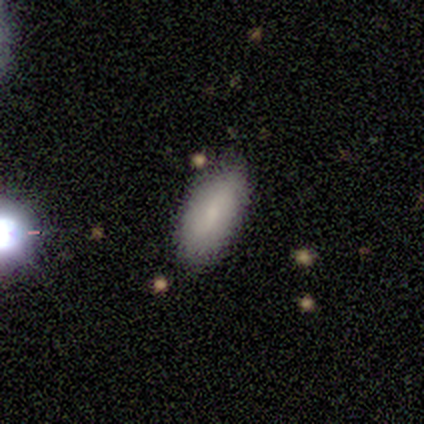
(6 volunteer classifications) Q: Smooth or featured?
A: smooth (83%); runner-up: featured or disk (17%)
Q: How rounded?
A: in between (100%)
Q: Merging?
A: none (83%); runner-up: minor disturbance (17%)